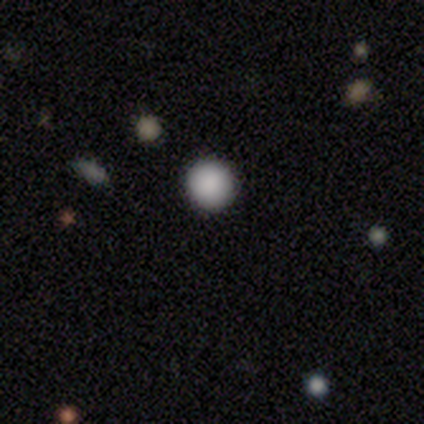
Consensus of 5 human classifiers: Smooth or featured?
  - smooth: 60% *
  - star or artifact: 40%
  - featured or disk: 0%
How rounded?
  - round: 100% *
  - in between: 0%
  - cigar-shaped: 0%
Merging?
  - none: 100% *
  - minor disturbance: 0%
  - major disturbance: 0%
  - merger: 0%